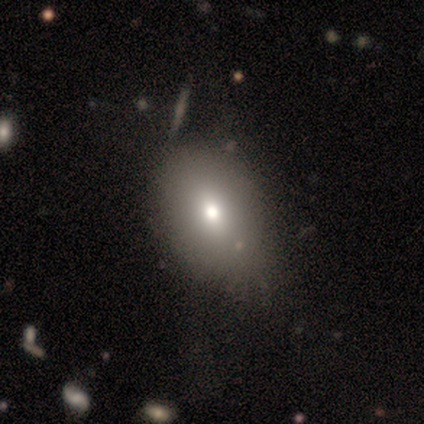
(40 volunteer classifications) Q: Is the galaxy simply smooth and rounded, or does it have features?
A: smooth — 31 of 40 (78%).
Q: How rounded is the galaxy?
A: in between — 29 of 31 (94%).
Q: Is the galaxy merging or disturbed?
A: none — 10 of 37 (27%).